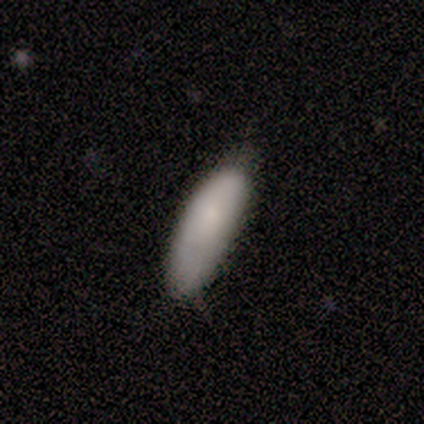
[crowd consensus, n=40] smooth-or-featured: smooth: 82% | star or artifact: 10% | featured or disk: 8%
  how-rounded: in between: 70% | cigar-shaped: 30% | round: 0%
  merging: none: 69% | minor disturbance: 22% | major disturbance: 6% | merger: 3%